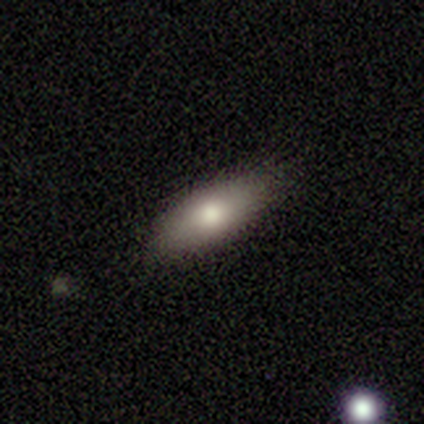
A smooth galaxy with no disk features (76%) that is in between round and cigar-shaped (86%). Merging: none (79%).